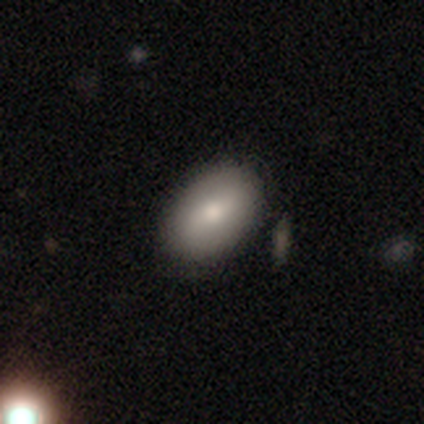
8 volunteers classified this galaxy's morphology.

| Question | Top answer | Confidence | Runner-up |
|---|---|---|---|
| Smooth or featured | smooth | 62% | featured or disk (38%) |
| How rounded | in between | 100% | — |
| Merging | none | 88% | major disturbance (12%) |